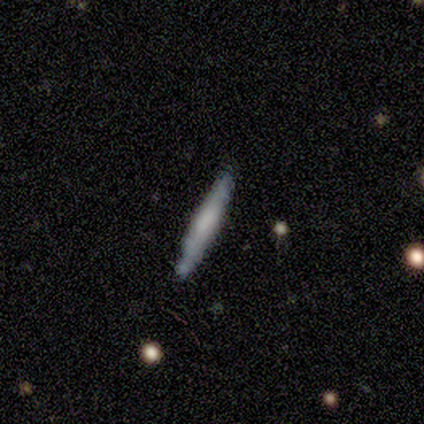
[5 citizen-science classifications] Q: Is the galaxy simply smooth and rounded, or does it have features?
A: smooth — 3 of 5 (60%).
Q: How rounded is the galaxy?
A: cigar-shaped — 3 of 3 (100%).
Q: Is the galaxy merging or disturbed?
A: minor disturbance — 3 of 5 (60%).